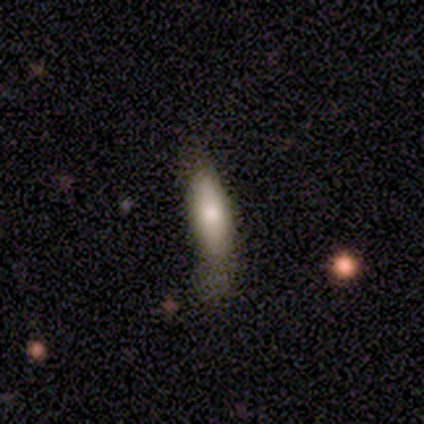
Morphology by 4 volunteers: Overall: smooth (50%; featured or disk 25%). How rounded: in between (100%). Merging: none (67%; minor disturbance 33%).